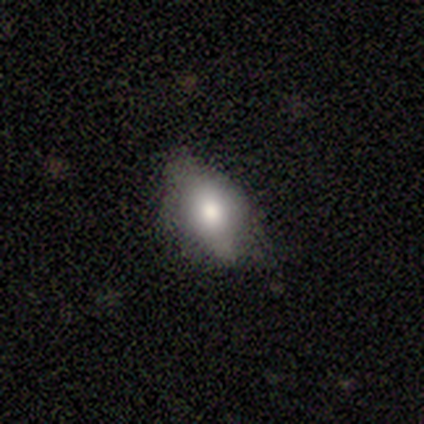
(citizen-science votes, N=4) Smooth or featured? smooth (75%)
How rounded? in between (67%)
Merging? none (75%)